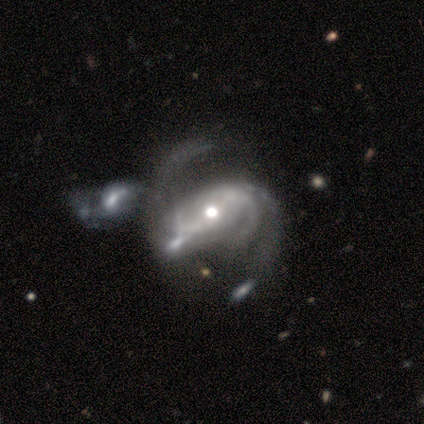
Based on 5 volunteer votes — Q: Smooth or featured?
A: featured or disk (80%); runner-up: star or artifact (20%)
Q: Edge-on disk?
A: no (100%)
Q: Bar?
A: strong (50%); tied with: weak (50%)
Q: Spiral arms?
A: yes (100%)
Q: Spiral winding?
A: loose (75%); runner-up: medium (25%)
Q: Spiral arm count?
A: 2 (75%); runner-up: 3 (25%)
Q: Bulge size?
A: moderate (50%); runner-up: large (25%)
Q: Merging?
A: major disturbance (50%); runner-up: minor disturbance (25%)